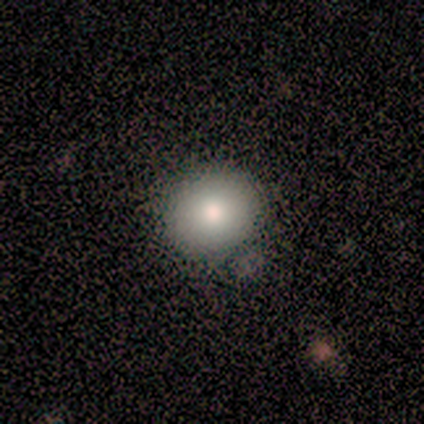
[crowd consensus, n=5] Smooth or featured: smooth — 80% (featured or disk — 20%)
How rounded: round — 100%
Merging: none — 60% (minor disturbance — 20%)